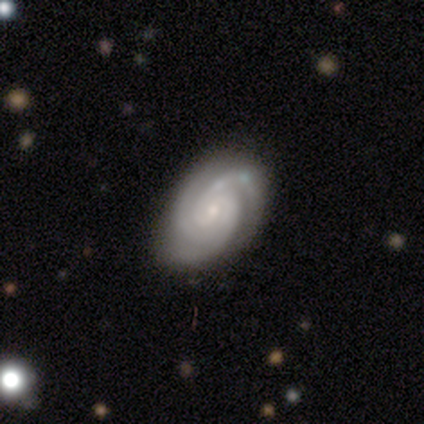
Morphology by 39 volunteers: Volunteers were most divided on "bulge size": small: 58%, moderate: 33%, large: 6%, none: 3%, dominant: 0%. More confident: edge-on disk — no (100%); spiral arms — yes (100%); smooth or featured — featured or disk (92%); spiral winding — tight (89%); spiral arm count — 3 (69%); bar — no (64%); merging — none (63%).